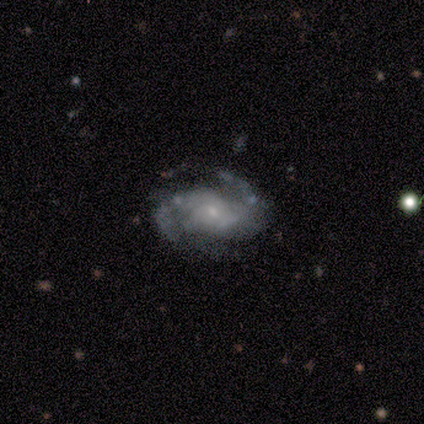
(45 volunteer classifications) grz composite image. It shows a featured or disk galaxy (84%) with no bar (61%), 2 (65%) medium (46%) spiral arms (97%) and a small central bulge (82%). Merging: none (59%).